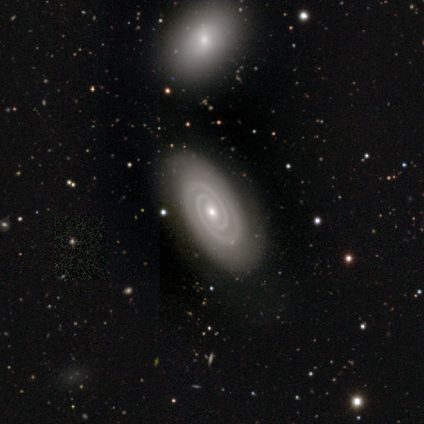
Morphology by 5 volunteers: A featured or disk galaxy (100%) with no bar (100%), 2 (80%) tight (80%) spiral arms (100%) and a small central bulge (60%). Merging: none (100%).